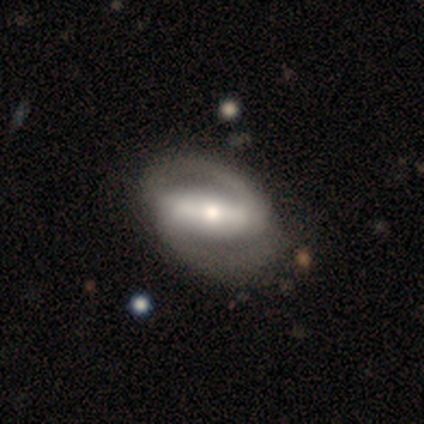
smooth_or_featured: featured or disk (p=0.75) [alt: smooth p=0.25]
disk_edge_on: no (p=1.00)
bar: strong (p=1.00)
has_spiral_arms: yes (p=1.00)
spiral_winding: medium (p=1.00)
spiral_arm_count: 2 (p=1.00)
bulge_size: small (p=0.67) [alt: moderate p=0.33]
merging: none (p=0.75) [alt: major disturbance p=0.25]